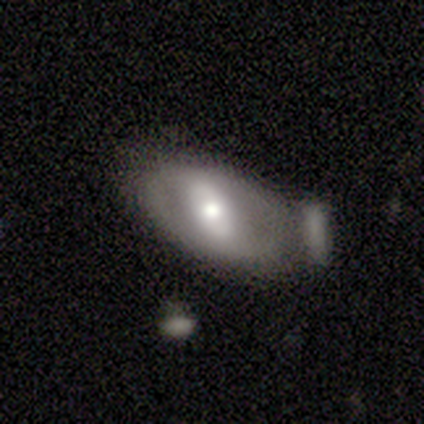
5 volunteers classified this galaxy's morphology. type=featured or disk (60%); edge-on=no (100%); bar=strong (67%); spiral arms=no (100%); bulge=moderate (67%); merging=major disturbance (50%).